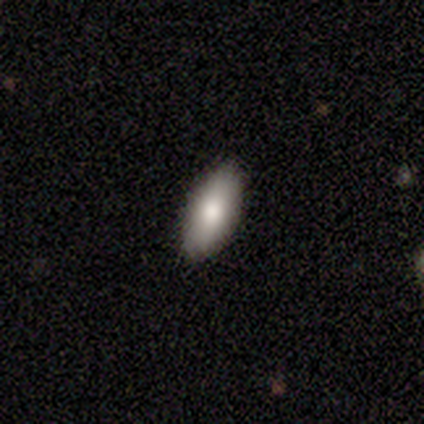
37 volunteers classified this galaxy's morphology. Volunteers were most divided on "smooth or featured": smooth: 76%, featured or disk: 14%, star or artifact: 11%. More confident: merging — none (94%); how rounded — in between (86%).